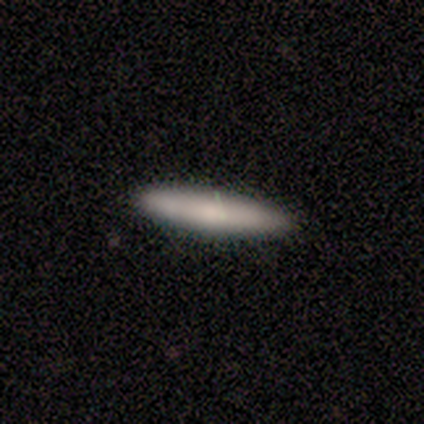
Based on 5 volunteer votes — Smooth or featured? 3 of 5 (60%) said smooth. How rounded? 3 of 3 (100%) said cigar-shaped. Merging? 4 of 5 (80%) said none.